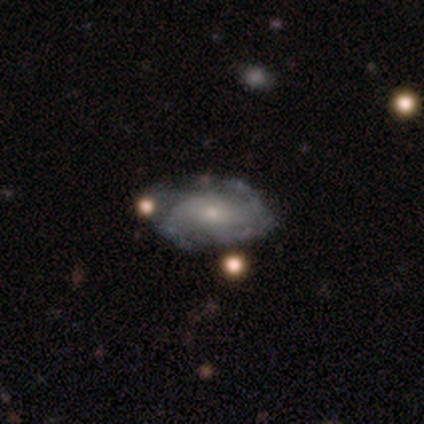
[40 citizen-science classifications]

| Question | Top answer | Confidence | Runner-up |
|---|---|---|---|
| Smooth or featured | featured or disk | 80% | smooth (20%) |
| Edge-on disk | no | 94% | yes (6%) |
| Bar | no | 63% | weak (33%) |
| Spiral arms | yes | 80% | no (20%) |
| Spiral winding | medium | 50% | tight (42%) |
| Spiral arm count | can't tell | 58% | 2 (33%) |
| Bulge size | small | 63% | moderate (27%) |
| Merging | none | 62% | minor disturbance (35%) |